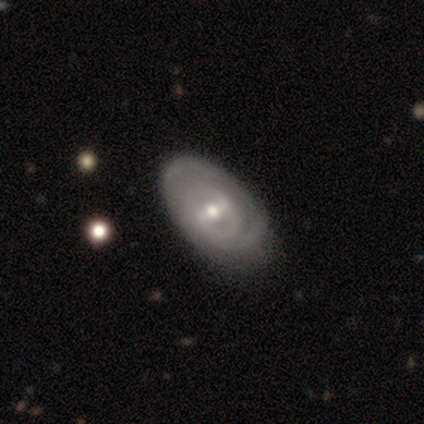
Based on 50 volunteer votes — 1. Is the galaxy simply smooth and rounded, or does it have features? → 80% featured or disk, 14% smooth, 6% star or artifact.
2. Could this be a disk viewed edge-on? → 95% no, 5% yes.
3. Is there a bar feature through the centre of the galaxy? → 42% strong, 39% weak, 18% no.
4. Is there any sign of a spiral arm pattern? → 61% yes, 39% no.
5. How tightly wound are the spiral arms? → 78% tight, 17% medium, 4% loose.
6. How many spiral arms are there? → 43% 2, 35% can't tell, 13% 1, 4% 3, 4% more than 4, 0% 4.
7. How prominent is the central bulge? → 76% moderate, 24% small, 0% dominant, 0% large, 0% none.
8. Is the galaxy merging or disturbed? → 68% none, 23% minor disturbance, 4% major disturbance, 4% merger.